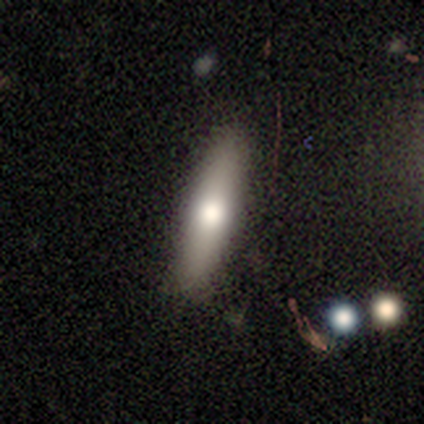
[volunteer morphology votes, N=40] A smooth galaxy with no disk features (72%) that is cigar-shaped (86%).

Vote fractions:
- Smooth or featured? smooth: 72% / featured or disk: 22% / star or artifact: 5%
- How rounded? cigar-shaped: 86% / in between: 14% / round: 0%
- Merging? none: 82% / minor disturbance: 16% / merger: 3% / major disturbance: 0%